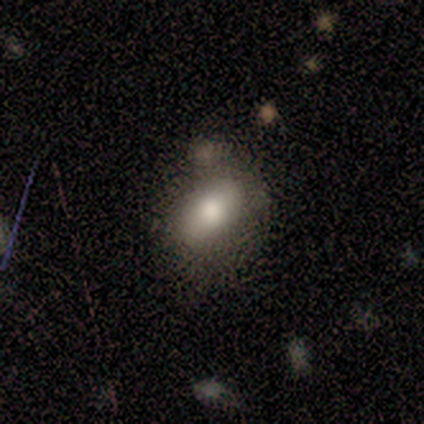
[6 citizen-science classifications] A smooth galaxy with no disk features (83%) that is in between round and cigar-shaped (100%). Merging: major disturbance (50%).